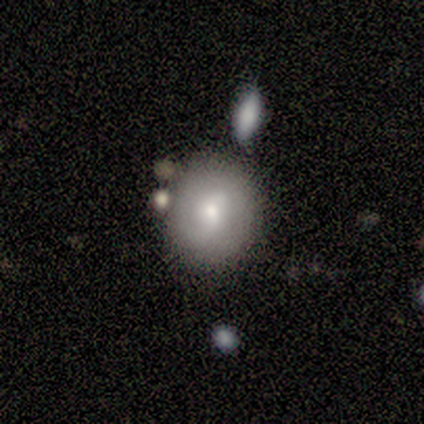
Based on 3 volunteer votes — A smooth galaxy with no disk features (67%) that is round (50%, tied with in between). Merging: none (100%).